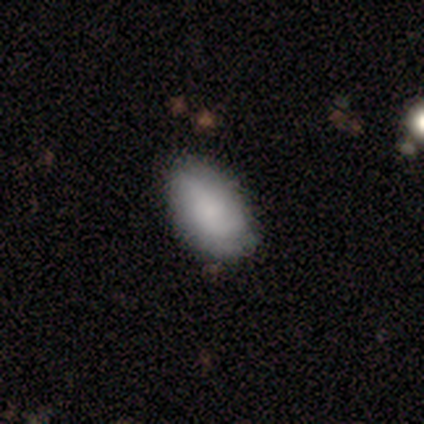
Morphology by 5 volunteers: smooth 60%, featured or disk 40%, star or artifact 0%. Down the decision tree: how rounded — in between (100%); merging — none (40%, tied with minor disturbance).